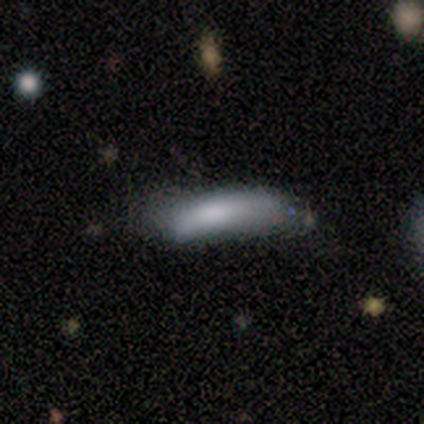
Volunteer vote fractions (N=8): This appears to be a smooth galaxy with no disk features (75%) that is in between round and cigar-shaped (50%, tied with cigar-shaped). Merging: none (50%).